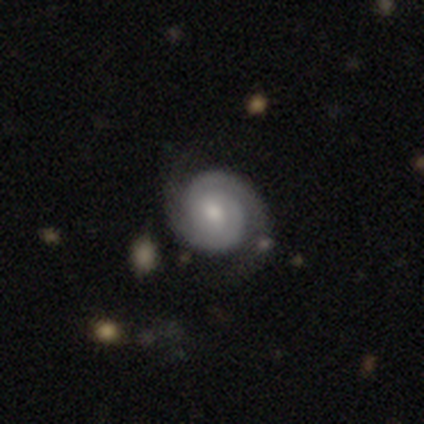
Smooth or featured: featured or disk — 92% (smooth — 8%)
Edge-on disk: no — 100%
Bar: no — 71% (weak — 29%)
Spiral arms: yes — 100%
Spiral winding: tight — 77% (medium — 17%)
Spiral arm count: 2 — 97% (1 — 3%)
Bulge size: moderate — 60% (small — 31%)
Merging: none — 61% (minor disturbance — 5%)